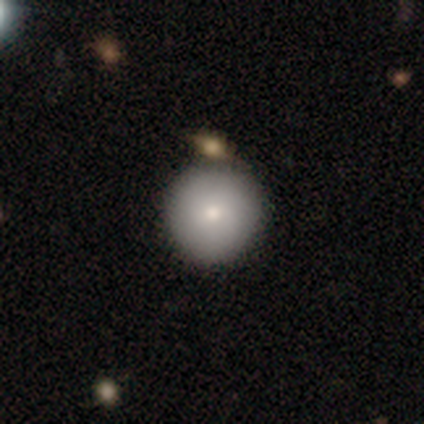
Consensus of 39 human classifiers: smooth_or_featured: smooth (p=0.82) [alt: featured or disk p=0.10]
how_rounded: round (p=0.97) [alt: in between p=0.03]
merging: none (p=0.86) [alt: minor disturbance p=0.11]